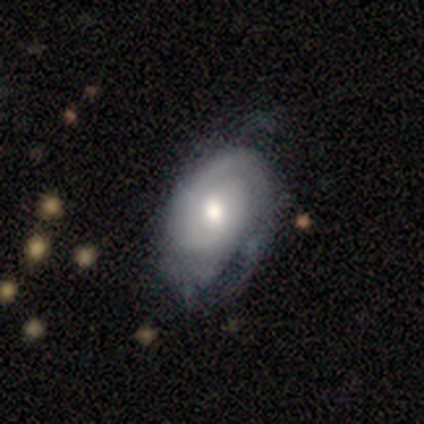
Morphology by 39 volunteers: smooth-or-featured: featured or disk: 85% | smooth: 15% | star or artifact: 0%
  disk-edge-on: no: 94% | yes: 6%
    bar: no: 71% | weak: 26% | strong: 3%
    has-spiral-arms: yes: 81% | no: 19%
      spiral-winding: tight: 76% | medium: 16% | loose: 8%
      spiral-arm-count: 1: 36% (tied) | can't tell: 36% (tied) | 2: 16% | 3: 12% | 4: 0% | more than 4: 0%
    bulge-size: moderate: 71% | large: 13% | small: 13% | dominant: 3% | none: 0%
  merging: none: 33% | minor disturbance: 31% | major disturbance: 5% | merger: 0%